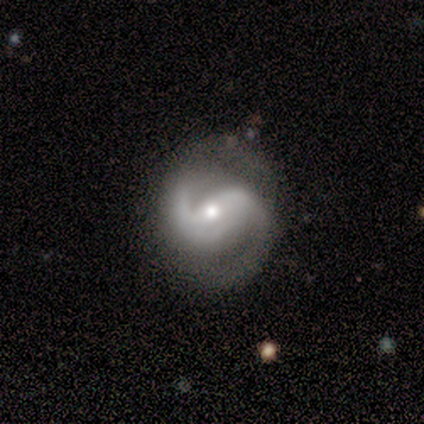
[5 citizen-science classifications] Smooth or featured? 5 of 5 (100%) said featured or disk. Edge-on disk? 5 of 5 (100%) said no. Bar? 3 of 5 (60%) said strong. Spiral arms? 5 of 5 (100%) said yes. Spiral winding? 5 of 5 (100%) said medium. Spiral arm count? 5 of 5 (100%) said 2. Bulge size? 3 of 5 (60%) said moderate. Merging? 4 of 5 (80%) said none.